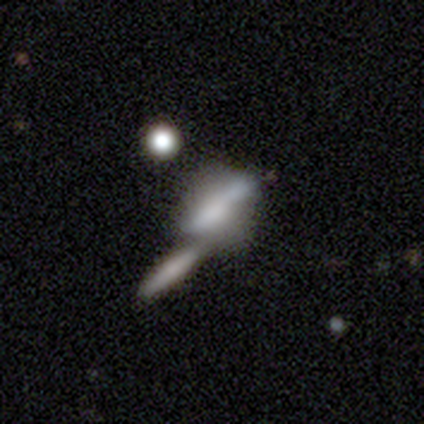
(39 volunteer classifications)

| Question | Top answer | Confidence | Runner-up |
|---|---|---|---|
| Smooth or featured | smooth | 59% | featured or disk (33%) |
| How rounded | in between | 52% | cigar-shaped (48%) |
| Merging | merger | 67% | none (22%) |